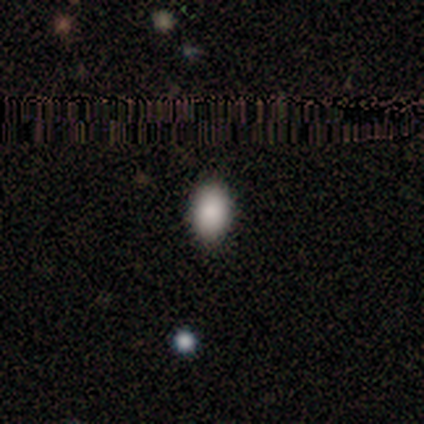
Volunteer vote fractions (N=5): This is clearly a smooth galaxy (100%). How rounded: clearly in between (100%). Merging: clearly none (100%).